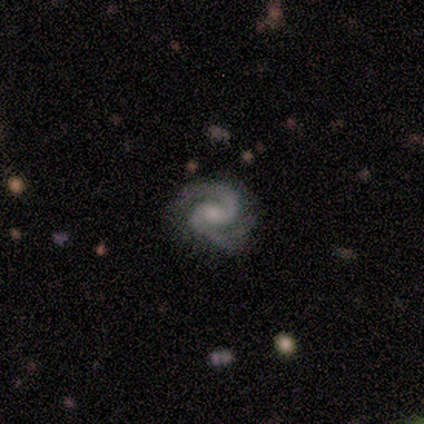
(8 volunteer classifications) featured or disk 100%, smooth 0%, star or artifact 0%. Down the decision tree: edge-on disk — no (100%); bar — no (50%); spiral arms — yes (100%); spiral arm count — 2 (100%); spiral winding — medium (50%); bulge size — small (62%); merging — none (75%).